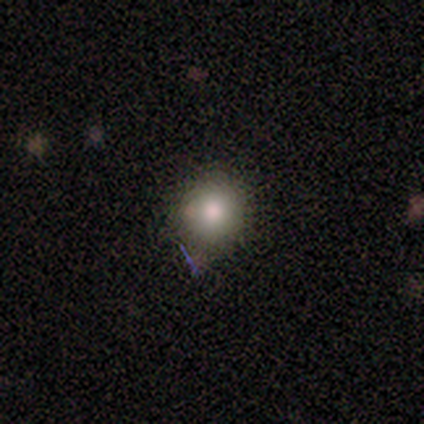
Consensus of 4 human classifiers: smooth 100%, featured or disk 0%, star or artifact 0%. Down the decision tree: how rounded — round (100%); merging — none (100%).